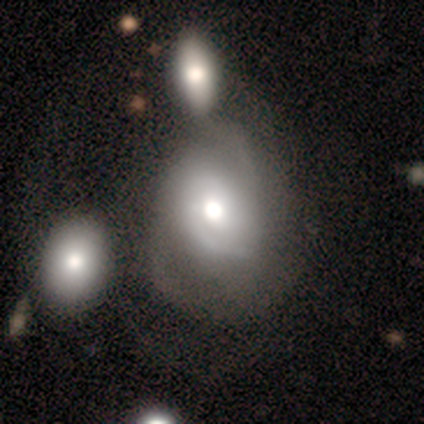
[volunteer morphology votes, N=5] smooth_or_featured: smooth (p=0.60) [alt: featured or disk p=0.40]
how_rounded: in between (p=0.67) [alt: round p=0.33]
merging: major disturbance (p=0.60) [alt: minor disturbance p=0.40]